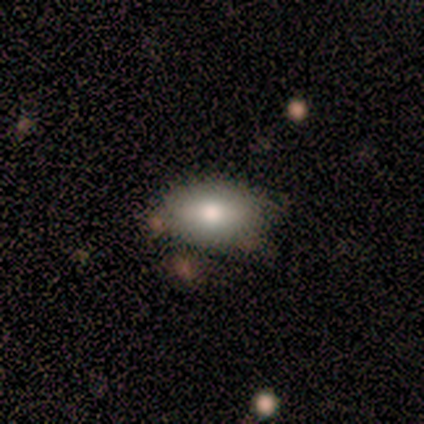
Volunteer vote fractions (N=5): A smooth galaxy with no disk features (100%) that is in between round and cigar-shaped (100%).

Vote fractions:
- Smooth or featured? smooth: 100% / featured or disk: 0% / star or artifact: 0%
- How rounded? in between: 100% / round: 0% / cigar-shaped: 0%
- Merging? none: 100% / minor disturbance: 0% / major disturbance: 0% / merger: 0%